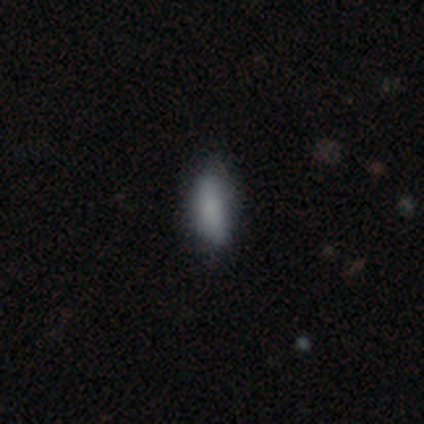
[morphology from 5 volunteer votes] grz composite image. It shows a smooth galaxy with no disk features (60%) that is cigar-shaped (67%). Merging: none (50%).